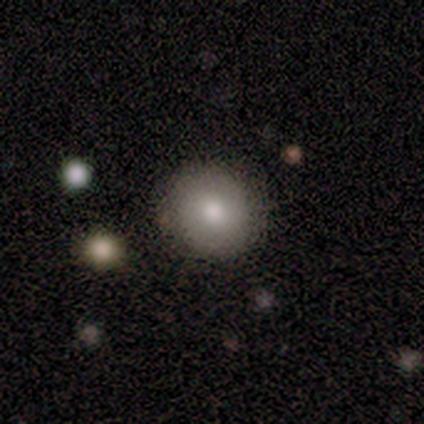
Smooth or featured?
  - smooth: 67% *
  - featured or disk: 33%
  - star or artifact: 0%
How rounded?
  - round: 50% * (tied)
  - in between: 50% * (tied)
  - cigar-shaped: 0%
Merging?
  - none: 67% *
  - merger: 33%
  - minor disturbance: 0%
  - major disturbance: 0%